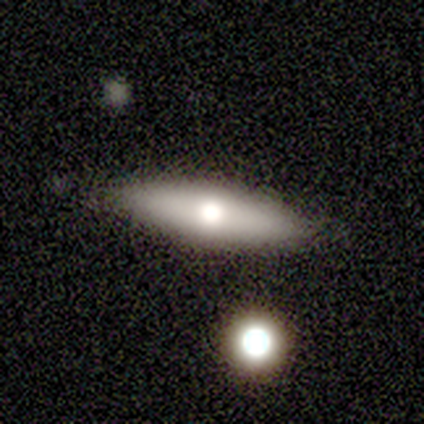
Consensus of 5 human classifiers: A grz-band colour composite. It shows a featured or disk galaxy (60%) viewed edge-on (100%) with a rounded central bulge (100%). Merging: none (100%).